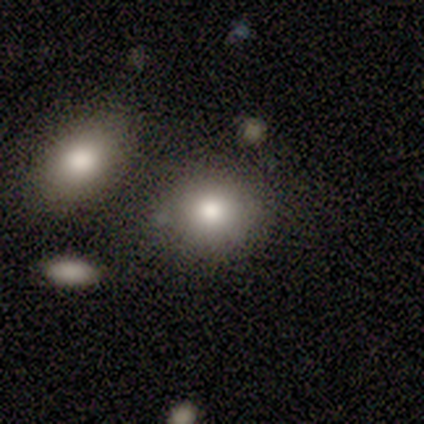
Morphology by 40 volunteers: Overall: smooth (90%). How rounded: round (61%; in between 36%). Merging: none (68%).